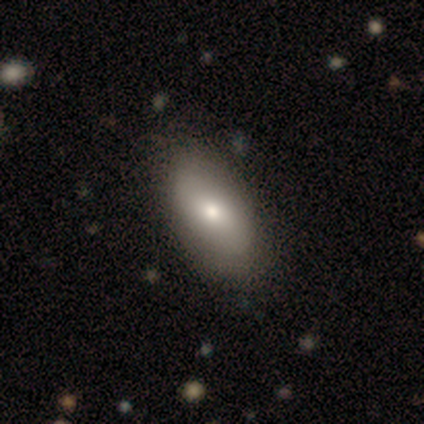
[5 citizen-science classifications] Smooth or featured: smooth — 40% (tied with featured or disk — 40%)
How rounded: in between — 100%
Merging: none — 75% (merger — 25%)